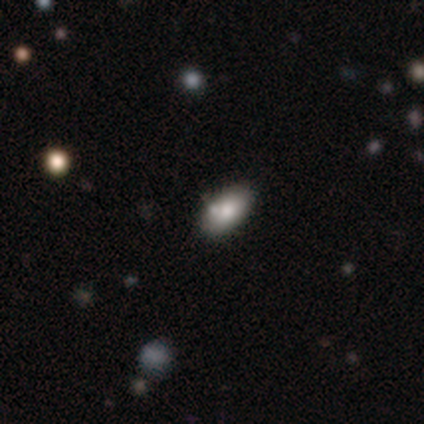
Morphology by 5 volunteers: Smooth or featured? 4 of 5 (80%) said smooth. How rounded? 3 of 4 (75%) said in between. Merging? 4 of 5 (80%) said none.